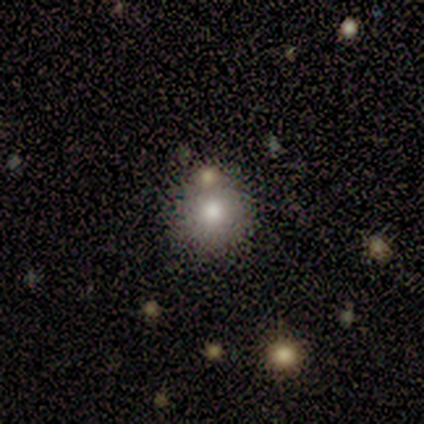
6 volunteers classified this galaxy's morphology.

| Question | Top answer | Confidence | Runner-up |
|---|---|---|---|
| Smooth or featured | smooth | 67% | star or artifact (33%) |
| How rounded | round | 100% | — |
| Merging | none | 50% | minor disturbance (25%) |